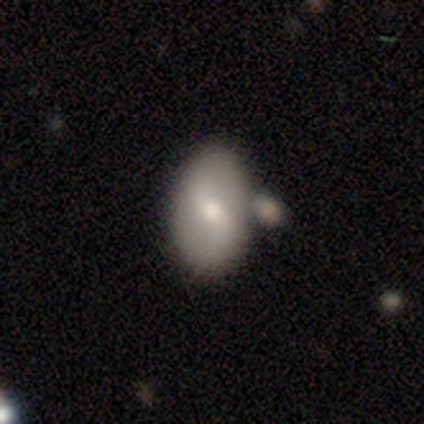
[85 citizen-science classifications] Smooth or featured: smooth — 52% (featured or disk — 44%)
How rounded: in between — 86% (round — 14%)
Merging: none — 62% (merger — 20%)